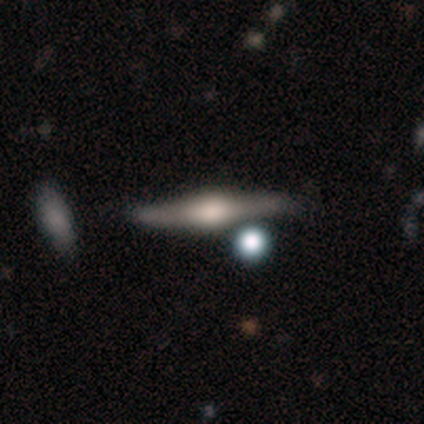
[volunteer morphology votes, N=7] Volunteers were most divided on "smooth or featured": featured or disk: 71%, smooth: 14%, star or artifact: 14%. More confident: edge-on disk — yes (100%); edge-on bulge — rounded (100%); merging — none (83%).